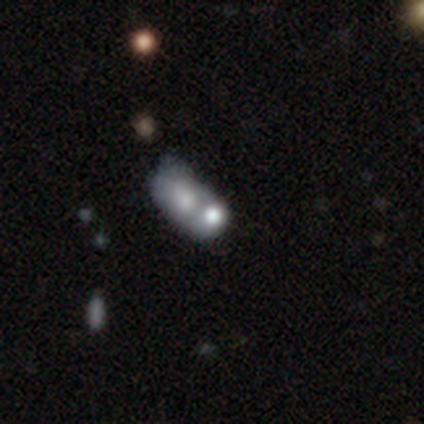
Smooth or featured?
  - smooth: 40% * (tied)
  - featured or disk: 40% * (tied)
  - star or artifact: 20%
How rounded?
  - round: 50% * (tied)
  - cigar-shaped: 50% * (tied)
  - in between: 0%
Merging?
  - merger: 100% *
  - none: 0%
  - minor disturbance: 0%
  - major disturbance: 0%